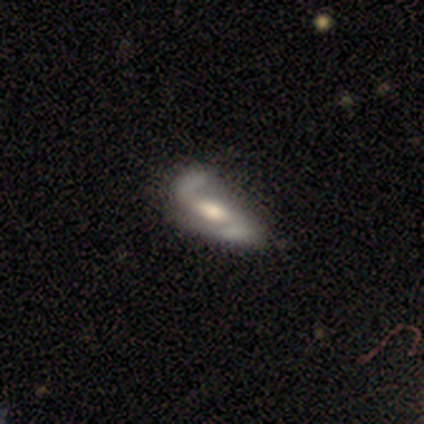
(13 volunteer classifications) A featured or disk galaxy (77%) with a weak bar (50%), 2 (100%) loose (62%) spiral arms (80%) and a moderate central bulge (50%).

Vote fractions:
- Smooth or featured? featured or disk: 77% / star or artifact: 15% / smooth: 8%
- Edge-on disk? no: 100% / yes: 0%
- Bar? weak: 50% / strong: 30% / no: 20%
- Spiral arms? yes: 80% / no: 20%
- Spiral winding? loose: 62% / medium: 38% / tight: 0%
- Spiral arm count? 2: 100% / 1: 0% / 3: 0% / 4: 0% / more than 4: 0% / can't tell: 0%
- Bulge size? moderate: 50% / small: 30% / large: 20% / dominant: 0% / none: 0%
- Merging? none: 55% / major disturbance: 27% / minor disturbance: 18% / merger: 0%